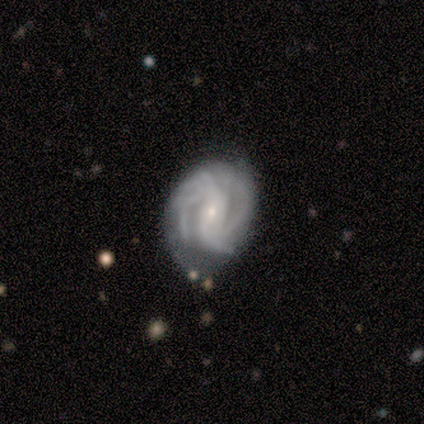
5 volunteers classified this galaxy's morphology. This is clearly a featured or disk galaxy (100%). It is clearly not viewed edge-on (100%). Bar: likely no (60%). Spiral arm pattern: clearly yes (100%). Spiral arm count: marginally 4 (40%). Spiral winding: likely medium (60%). Central bulge: likely small (60%). Merging: likely none (60%).